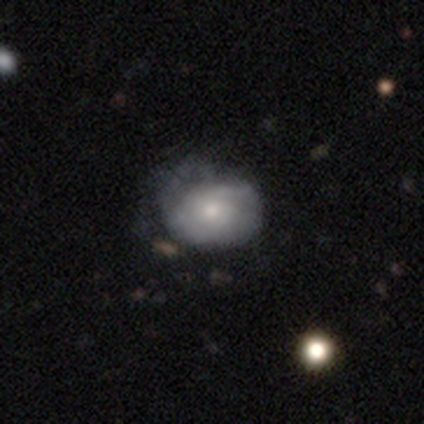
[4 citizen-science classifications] Smooth or featured? featured or disk (75%)
Edge-on disk? no (100%)
Bar? no (67%)
Spiral arms? yes (67%)
Spiral winding? medium (100%)
Spiral arm count? 1 (50%, tied with 2)
Bulge size? small (100%)
Merging? minor disturbance (50%)